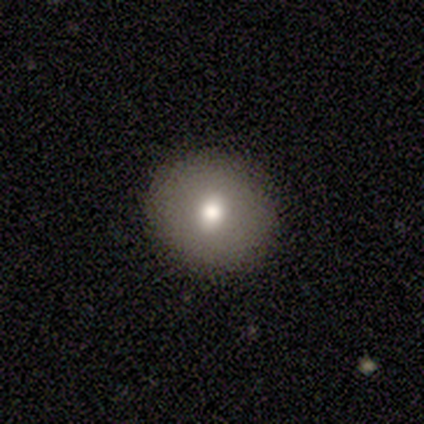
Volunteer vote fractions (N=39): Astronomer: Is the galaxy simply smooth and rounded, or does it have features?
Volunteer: smooth — 72%.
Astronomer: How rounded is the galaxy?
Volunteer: round — 93%.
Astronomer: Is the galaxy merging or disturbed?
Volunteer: none — 84%.